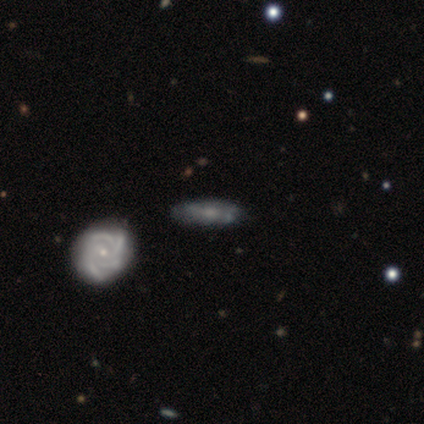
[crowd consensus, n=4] featured or disk 75%, smooth 25%, star or artifact 0%. Down the decision tree: edge-on disk — no (67%); bar — weak (100%); spiral arms — yes (100%); spiral arm count — 3 (100%); spiral winding — tight (50%, tied with medium); bulge size — small (50%, tied with none); merging — none (50%).